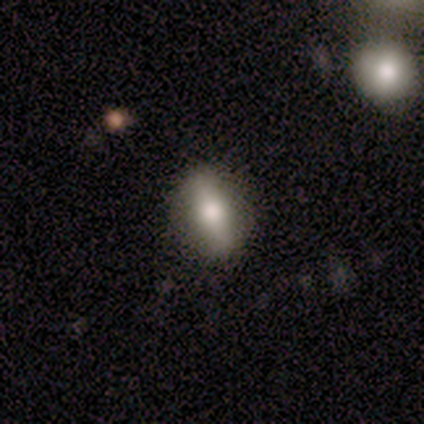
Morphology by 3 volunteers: A featured or disk galaxy (100%) viewed edge-on (100%) with a rounded central bulge (100%). Merging: none (67%).